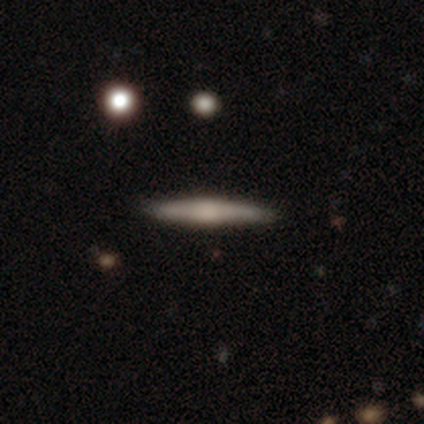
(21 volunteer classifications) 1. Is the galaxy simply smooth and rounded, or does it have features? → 57% featured or disk, 43% smooth, 0% star or artifact.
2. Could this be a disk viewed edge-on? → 100% yes, 0% no.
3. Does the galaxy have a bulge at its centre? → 83% rounded, 8% boxy, 8% none.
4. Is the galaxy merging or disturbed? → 90% none, 10% minor disturbance, 0% major disturbance, 0% merger.